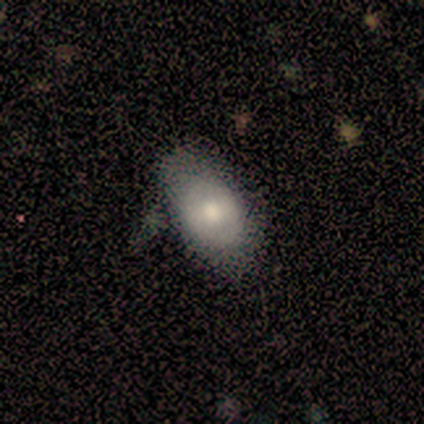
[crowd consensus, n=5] This appears to be a smooth galaxy with no disk features (100%) that is in between round and cigar-shaped (100%). Merging: none (100%).